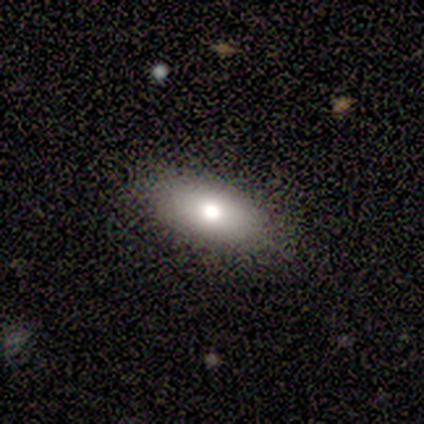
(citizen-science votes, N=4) This appears to be a smooth galaxy with no disk features (75%) that is in between round and cigar-shaped (100%). Merging: none (75%).